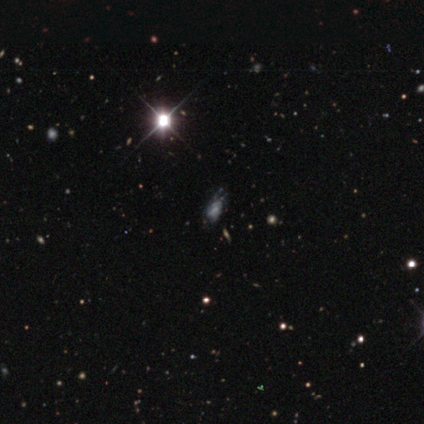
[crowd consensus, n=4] Smooth or featured?
  - featured or disk: 50% *
  - smooth: 25%
  - star or artifact: 25%
Edge-on disk?
  - no: 100% *
  - yes: 0%
Bar?
  - weak: 50% * (tied)
  - no: 50% * (tied)
  - strong: 0%
Spiral arms?
  - yes: 50% * (tied)
  - no: 50% * (tied)
Spiral winding?
  - tight: 100% *
  - medium: 0%
  - loose: 0%
Spiral arm count?
  - can't tell: 100% *
  - 1: 0%
  - 2: 0%
  - 3: 0%
  - 4: 0%
  - more than 4: 0%
Bulge size?
  - small: 50% * (tied)
  - none: 50% * (tied)
  - dominant: 0%
  - large: 0%
  - moderate: 0%
Merging?
  - none: 67% *
  - minor disturbance: 33%
  - major disturbance: 0%
  - merger: 0%